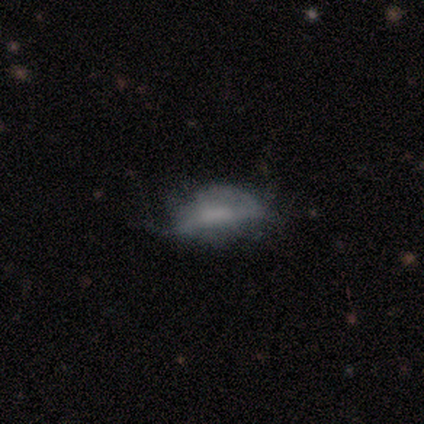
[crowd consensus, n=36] Q: Smooth or featured?
A: smooth (61%); runner-up: featured or disk (25%)
Q: How rounded?
A: in between (77%); runner-up: cigar-shaped (18%)
Q: Merging?
A: minor disturbance (35%); runner-up: none (29%)